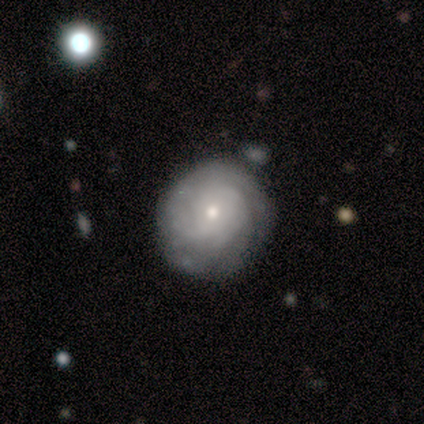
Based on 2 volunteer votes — smooth_or_featured: featured or disk (p=1.00)
disk_edge_on: no (p=1.00)
bar: weak (p=0.50) [tied with: no p=0.50]
has_spiral_arms: yes (p=1.00)
spiral_winding: tight (p=1.00)
spiral_arm_count: 2 (p=0.50) [tied with: can't tell p=0.50]
bulge_size: moderate (p=0.50) [tied with: small p=0.50]
merging: none (p=0.50) [tied with: minor disturbance p=0.50]